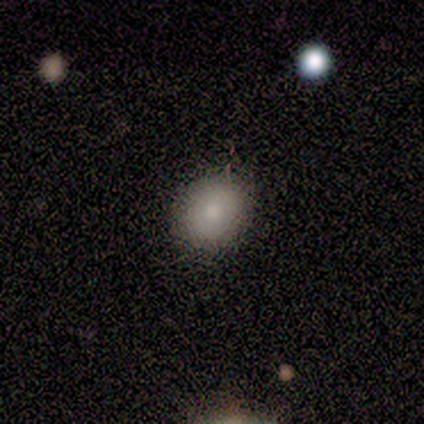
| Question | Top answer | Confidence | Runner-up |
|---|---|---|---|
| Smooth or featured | smooth | 80% | featured or disk (20%) |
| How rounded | in between | 75% | round (25%) |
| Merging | none | 100% | — |